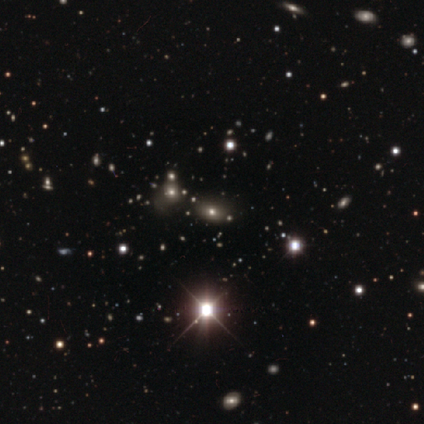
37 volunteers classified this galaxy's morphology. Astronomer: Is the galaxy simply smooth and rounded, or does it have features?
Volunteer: star or artifact — 73%.